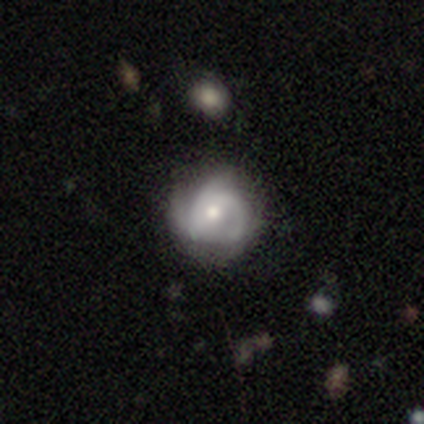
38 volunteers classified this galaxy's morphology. A featured or disk galaxy (84%) with no bar (47%), 3 (41%) medium (52%) spiral arms (91%) and a moderate central bulge (62%). Merging: none (42%).